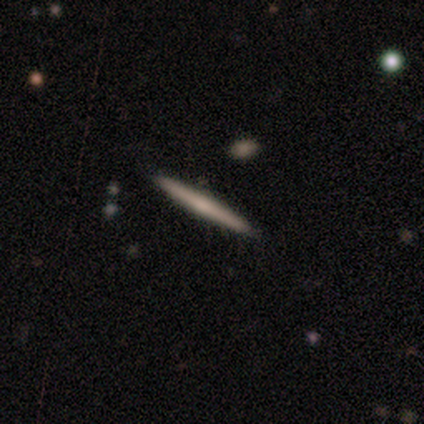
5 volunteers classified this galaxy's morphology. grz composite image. It shows a smooth galaxy with no disk features (80%) that is cigar-shaped (100%). Merging: none (60%).